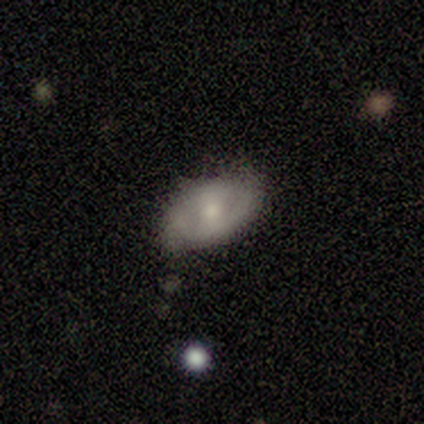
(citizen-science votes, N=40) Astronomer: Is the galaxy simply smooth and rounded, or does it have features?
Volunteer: featured or disk — 60%.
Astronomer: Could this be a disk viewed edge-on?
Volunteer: no — 83%.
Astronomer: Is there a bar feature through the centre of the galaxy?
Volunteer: weak — 50% (runner-up: no, 30%).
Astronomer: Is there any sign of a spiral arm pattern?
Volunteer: yes — 50%, tied with no at 50%.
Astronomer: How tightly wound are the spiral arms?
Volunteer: medium — 60%.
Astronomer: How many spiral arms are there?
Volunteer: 2 — 100%.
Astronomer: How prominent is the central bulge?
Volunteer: moderate — 65%.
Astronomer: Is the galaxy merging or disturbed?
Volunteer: none — 68%.